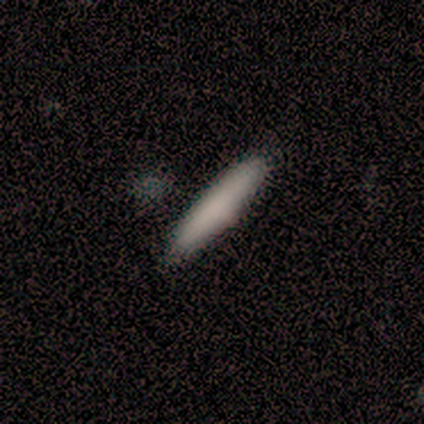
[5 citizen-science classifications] smooth-or-featured: smooth: 100% | featured or disk: 0% | star or artifact: 0%
  how-rounded: cigar-shaped: 100% | round: 0% | in between: 0%
  merging: none: 100% | minor disturbance: 0% | major disturbance: 0% | merger: 0%